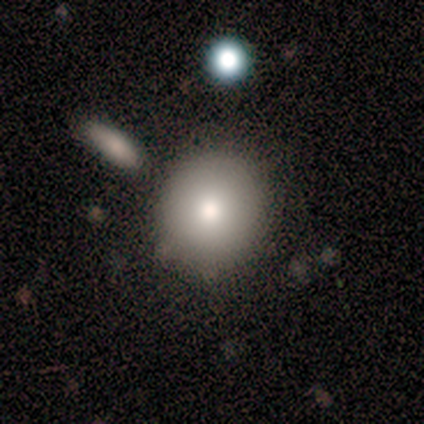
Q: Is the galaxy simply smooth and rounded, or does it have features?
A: smooth — 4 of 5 (80%).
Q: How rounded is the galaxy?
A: round — 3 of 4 (75%).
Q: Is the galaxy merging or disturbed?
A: none — 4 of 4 (100%).